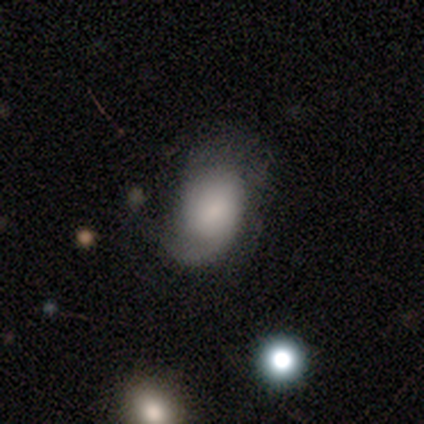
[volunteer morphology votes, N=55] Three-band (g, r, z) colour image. It shows a smooth galaxy with no disk features (47%) that is in between round and cigar-shaped (88%). Merging: none (42%).